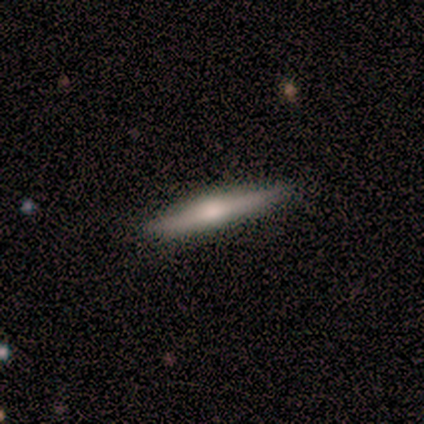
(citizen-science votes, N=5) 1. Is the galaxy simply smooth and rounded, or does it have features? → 80% featured or disk, 20% smooth, 0% star or artifact.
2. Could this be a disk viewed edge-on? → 100% yes, 0% no.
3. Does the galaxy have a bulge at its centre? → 100% rounded, 0% boxy, 0% none.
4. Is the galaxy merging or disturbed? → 80% none, 20% minor disturbance, 0% major disturbance, 0% merger.